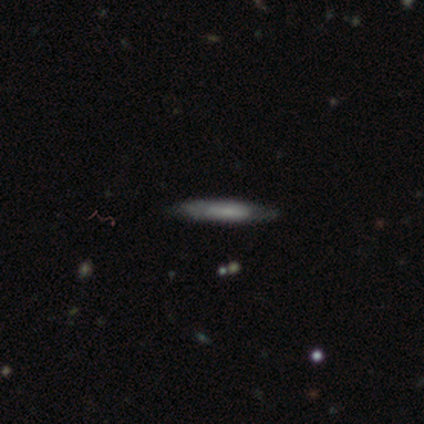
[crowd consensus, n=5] Volunteers were most divided on "smooth or featured": smooth: 80%, star or artifact: 20%, featured or disk: 0%. More confident: how rounded — cigar-shaped (100%); merging — none (100%).